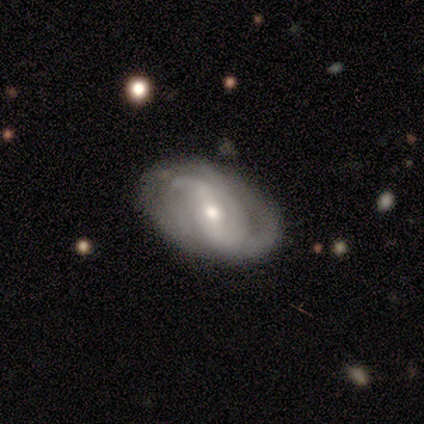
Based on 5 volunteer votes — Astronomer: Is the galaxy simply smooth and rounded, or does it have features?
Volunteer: featured or disk — 80%.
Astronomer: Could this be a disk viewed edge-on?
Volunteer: no — 100%.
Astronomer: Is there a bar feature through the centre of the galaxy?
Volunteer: strong — 50%, tied with weak at 50%.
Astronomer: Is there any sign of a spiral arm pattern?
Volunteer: yes — 100%.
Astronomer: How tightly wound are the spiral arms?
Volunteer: loose — 50%.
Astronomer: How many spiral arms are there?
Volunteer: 1 — 25%, tied with 2, 3 and can't tell at 25%.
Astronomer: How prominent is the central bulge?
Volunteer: moderate — 50%, tied with small at 50%.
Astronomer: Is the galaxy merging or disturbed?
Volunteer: none — 80%.